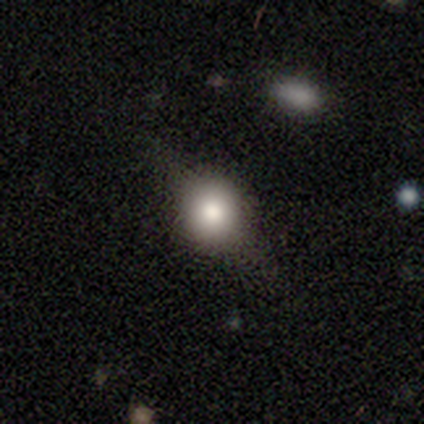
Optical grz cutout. It shows a featured or disk galaxy (59%) viewed edge-on (60%) with a rounded central bulge (100%). Merging: none (76%).